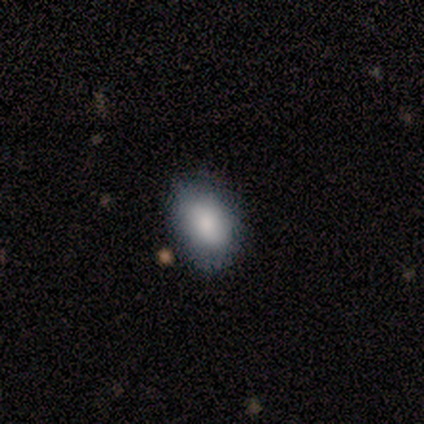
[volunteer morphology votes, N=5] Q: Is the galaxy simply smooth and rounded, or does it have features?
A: smooth — 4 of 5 (80%).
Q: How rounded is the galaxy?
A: in between — 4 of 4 (100%).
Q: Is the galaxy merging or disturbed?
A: none — 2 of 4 (50%, tied with minor disturbance).